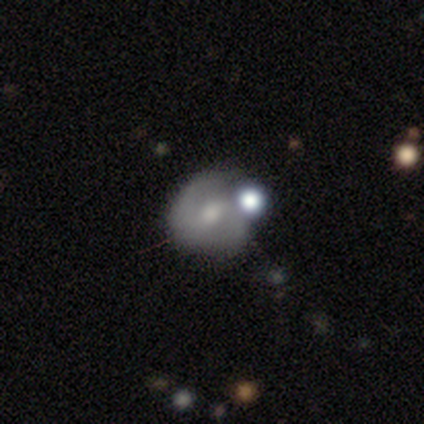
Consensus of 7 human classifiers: This is possibly a smooth galaxy (57%). How rounded: possibly round (50%, tied with in between). Merging: marginally none (43%, tied with minor disturbance).